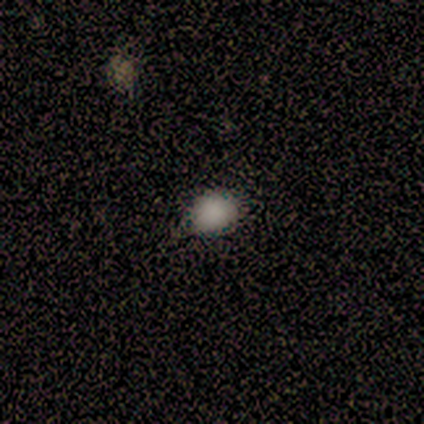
Smooth or featured?
  - smooth: 67% *
  - featured or disk: 17%
  - star or artifact: 17%
How rounded?
  - round: 50% * (tied)
  - in between: 50% * (tied)
  - cigar-shaped: 0%
Merging?
  - none: 80% *
  - major disturbance: 20%
  - minor disturbance: 0%
  - merger: 0%